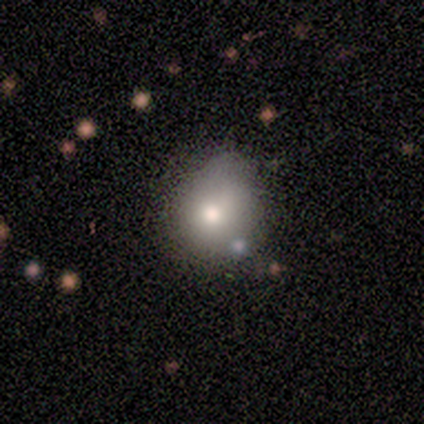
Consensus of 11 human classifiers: smooth_or_featured: smooth (p=0.91) [alt: featured or disk p=0.09]
how_rounded: round (p=0.80) [alt: in between p=0.20]
merging: none (p=0.64) [alt: minor disturbance p=0.36]